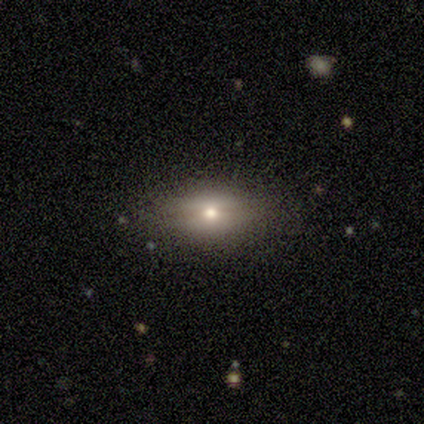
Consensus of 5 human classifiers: smooth_or_featured: smooth (p=0.60) [alt: featured or disk p=0.40]
how_rounded: in between (p=1.00)
merging: none (p=0.80) [alt: major disturbance p=0.20]